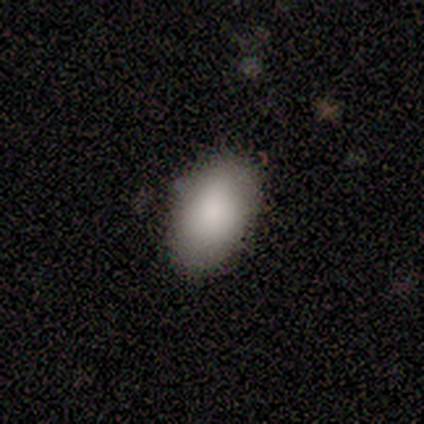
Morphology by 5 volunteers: Volunteers were most divided on "merging" (2-way tie): none: 40%, minor disturbance: 40%, merger: 20%, major disturbance: 0%. More confident: smooth or featured — smooth (100%); how rounded — in between (80%).